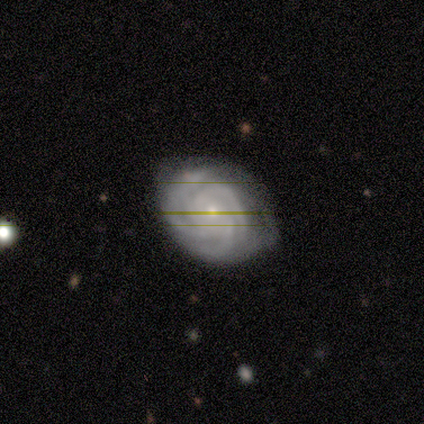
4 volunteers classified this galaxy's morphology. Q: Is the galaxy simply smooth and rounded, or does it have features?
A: featured or disk — 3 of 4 (75%).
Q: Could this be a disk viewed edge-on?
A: no — 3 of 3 (100%).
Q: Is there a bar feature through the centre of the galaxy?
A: no — 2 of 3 (67%).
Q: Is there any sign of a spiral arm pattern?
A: yes — 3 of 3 (100%).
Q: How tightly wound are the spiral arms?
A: tight — 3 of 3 (100%).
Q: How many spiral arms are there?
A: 3 — 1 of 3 (33%, tied with 4 and more than 4).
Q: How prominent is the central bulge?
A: large — 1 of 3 (33%, tied with moderate and none).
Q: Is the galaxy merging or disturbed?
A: none — 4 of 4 (100%).